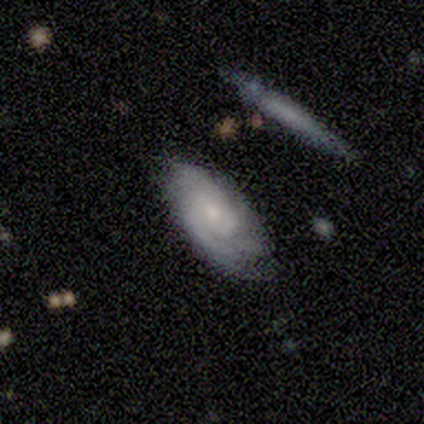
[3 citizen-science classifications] A featured or disk galaxy (100%) with no bar (100%), 3 (50%, tied with can't tell) tight (100%) spiral arms (67%) and a moderate central bulge (67%). Merging: none (67%).